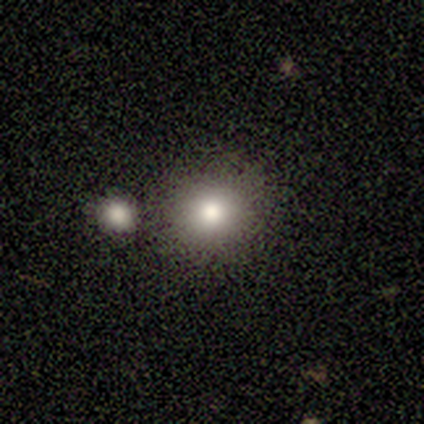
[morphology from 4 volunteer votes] A smooth galaxy with no disk features (75%) that is round (67%). Merging: none (33%, tied with minor disturbance and merger).